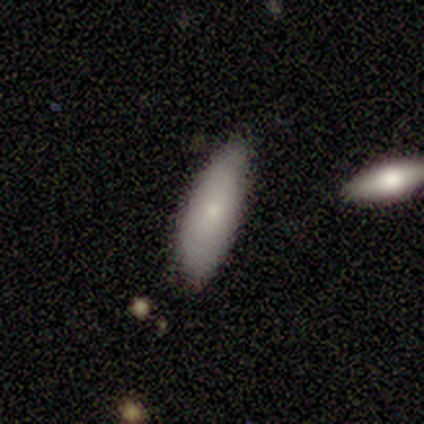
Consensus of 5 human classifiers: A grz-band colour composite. It shows a smooth galaxy with no disk features (80%) that is in between round and cigar-shaped (75%). Merging: none (60%).